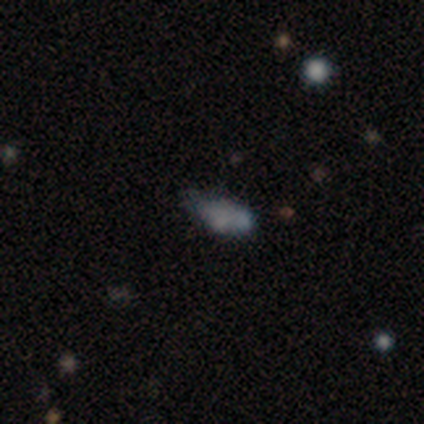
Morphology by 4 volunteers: A featured or disk galaxy (50%) with no bar (100%), no spiral arms (100%) and no central bulge (100%).

Vote fractions:
- Smooth or featured? featured or disk: 50% / smooth: 25% / star or artifact: 25%
- Edge-on disk? no: 100% / yes: 0%
- Bar? no: 100% / strong: 0% / weak: 0%
- Spiral arms? no: 100% / yes: 0%
- Bulge size? none: 100% / dominant: 0% / large: 0% / moderate: 0% / small: 0%
- Merging? minor disturbance: 67% / none: 33% / major disturbance: 0% / merger: 0%